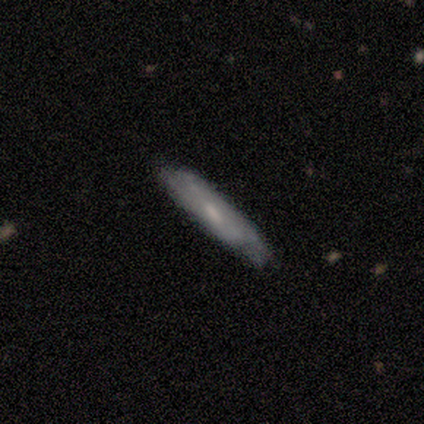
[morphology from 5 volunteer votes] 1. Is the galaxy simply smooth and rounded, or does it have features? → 80% smooth, 20% featured or disk, 0% star or artifact.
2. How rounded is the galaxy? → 100% cigar-shaped, 0% round, 0% in between.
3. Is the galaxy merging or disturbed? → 80% none, 20% minor disturbance, 0% major disturbance, 0% merger.